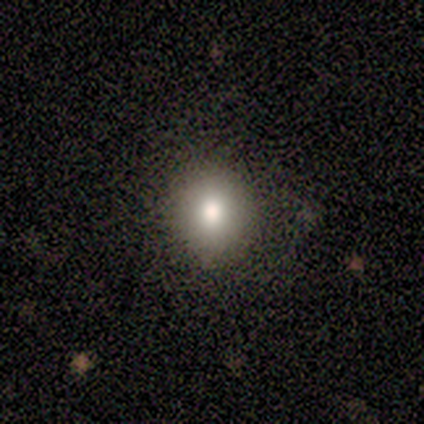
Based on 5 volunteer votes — This is clearly a smooth galaxy (100%). How rounded: clearly round (100%). Merging: clearly none (100%).